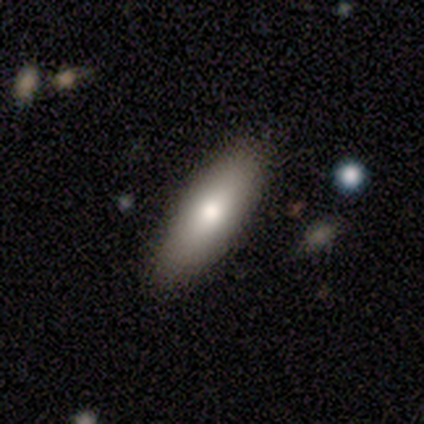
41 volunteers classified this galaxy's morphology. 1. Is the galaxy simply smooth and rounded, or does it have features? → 78% smooth, 20% featured or disk, 2% star or artifact.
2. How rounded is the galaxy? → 50% in between (tied), 50% cigar-shaped (tied), 0% round.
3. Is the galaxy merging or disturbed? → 90% none, 8% minor disturbance, 2% major disturbance, 0% merger.